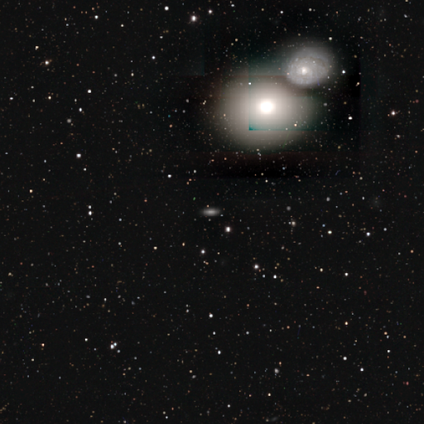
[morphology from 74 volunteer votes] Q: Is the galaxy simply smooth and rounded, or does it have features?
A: smooth — 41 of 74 (55%).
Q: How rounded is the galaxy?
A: in between — 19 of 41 (46%).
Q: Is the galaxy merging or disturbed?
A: none — 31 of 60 (52%).